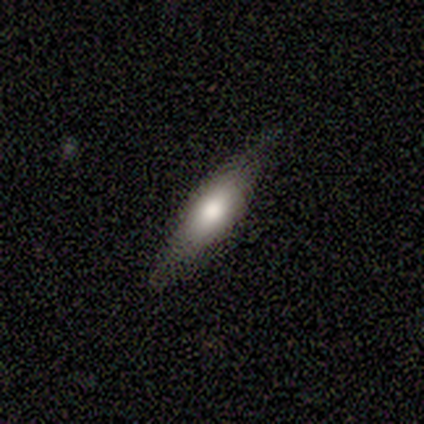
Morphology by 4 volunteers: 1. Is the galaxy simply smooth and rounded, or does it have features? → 75% smooth, 25% featured or disk, 0% star or artifact.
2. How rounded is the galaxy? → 67% in between, 33% cigar-shaped, 0% round.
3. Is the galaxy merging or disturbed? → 50% minor disturbance, 25% none, 25% merger, 0% major disturbance.